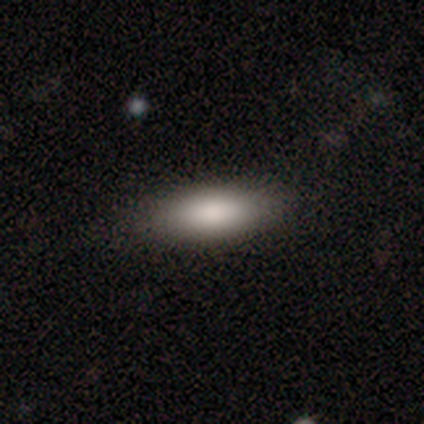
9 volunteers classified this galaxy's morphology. Smooth or featured: smooth — 89% (featured or disk — 11%)
How rounded: in between — 75% (cigar-shaped — 25%)
Merging: none — 89% (major disturbance — 11%)